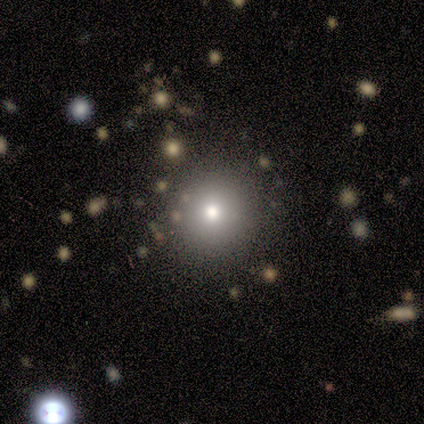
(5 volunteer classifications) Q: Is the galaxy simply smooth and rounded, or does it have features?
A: star or artifact — 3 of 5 (60%).